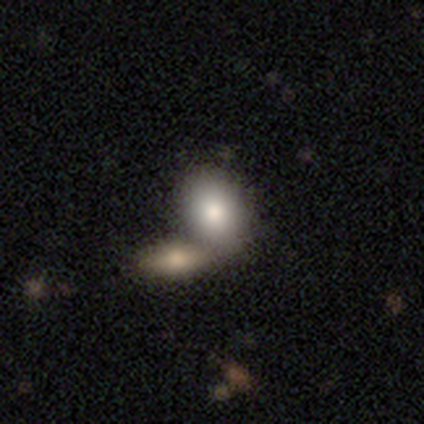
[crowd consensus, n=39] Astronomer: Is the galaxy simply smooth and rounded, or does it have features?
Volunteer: smooth — 79%.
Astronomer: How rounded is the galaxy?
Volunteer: in between — 87%.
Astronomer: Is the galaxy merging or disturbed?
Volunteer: merger — 53% (runner-up: none, 39%).